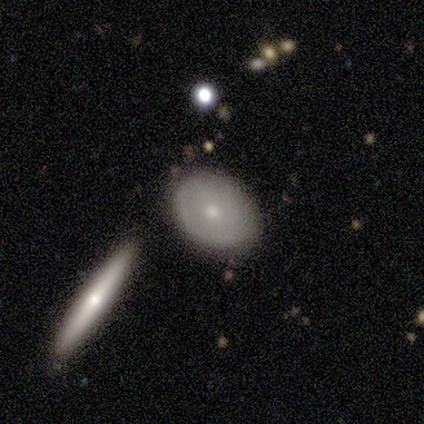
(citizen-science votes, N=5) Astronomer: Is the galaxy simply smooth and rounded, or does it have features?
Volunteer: smooth — 60% (runner-up: featured or disk, 40%).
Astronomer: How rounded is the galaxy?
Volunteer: in between — 100%.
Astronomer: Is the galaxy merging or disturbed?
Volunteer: none — 100%.